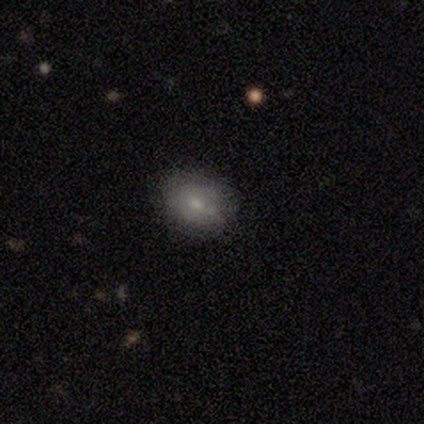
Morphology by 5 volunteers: smooth_or_featured: smooth (p=0.80) [alt: featured or disk p=0.20]
how_rounded: in between (p=0.75) [alt: round p=0.25]
merging: none (p=0.60) [alt: minor disturbance p=0.40]